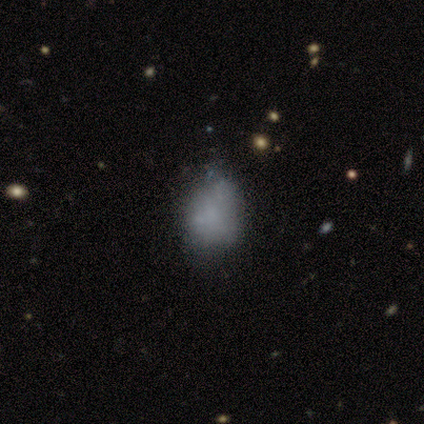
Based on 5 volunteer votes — smooth 40% (tied), star or artifact 40% (tied), featured or disk 20%. Down the decision tree: how rounded — round (50%, tied with in between); merging — none (100%).